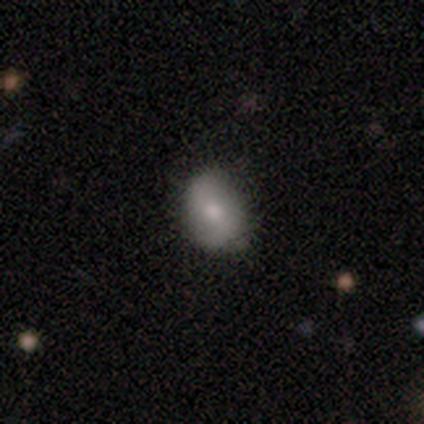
Overall: smooth (80%). How rounded: in between (100%). Merging: none (60%; minor disturbance 40%).